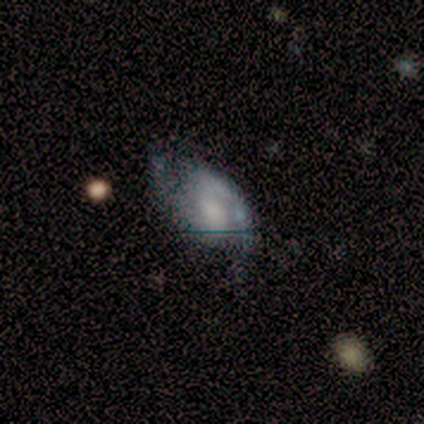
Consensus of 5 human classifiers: A featured or disk galaxy (80%) with no bar (75%), 2 (100%) medium (75%) spiral arms (100%) and no central bulge (75%). Merging: none (100%).